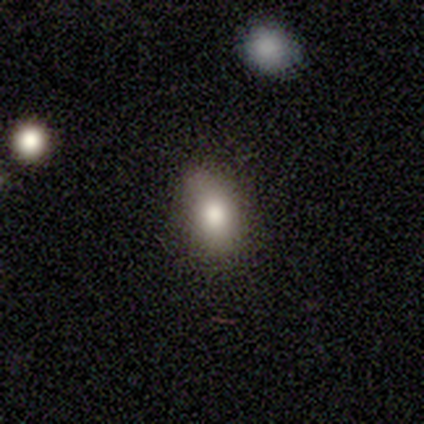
Volunteers were most divided on "how rounded": in between: 60%, cigar-shaped: 40%, round: 0%. More confident: smooth or featured — smooth (100%); merging — none (60%).